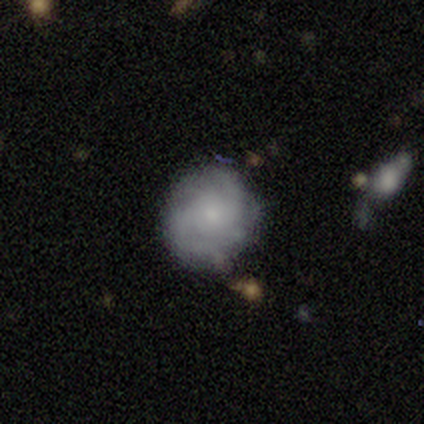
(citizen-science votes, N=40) smooth-or-featured: featured or disk: 57% | smooth: 35% | star or artifact: 8%
  disk-edge-on: no: 100% | yes: 0%
    bar: no: 78% | weak: 17% | strong: 4%
    has-spiral-arms: yes: 78% | no: 22%
      spiral-winding: tight: 56% | medium: 39% | loose: 6%
      spiral-arm-count: 2: 39% (tied) | can't tell: 39% (tied) | 4: 17% | more than 4: 6% | 1: 0% | 3: 0%
    bulge-size: small: 61% | none: 26% | moderate: 13% | dominant: 0% | large: 0%
  merging: none: 78% | minor disturbance: 22% | major disturbance: 0% | merger: 0%